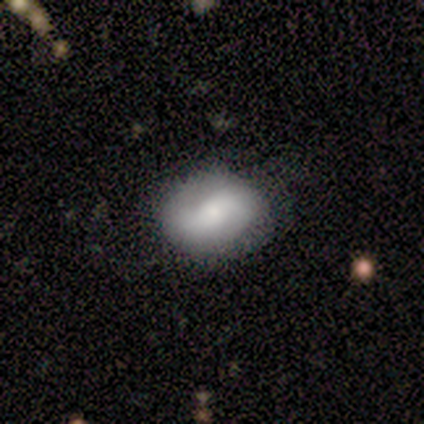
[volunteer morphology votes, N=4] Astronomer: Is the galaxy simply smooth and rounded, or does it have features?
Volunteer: smooth — 100%.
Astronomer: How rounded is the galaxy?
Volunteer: in between — 100%.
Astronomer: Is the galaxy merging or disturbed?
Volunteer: none — 100%.